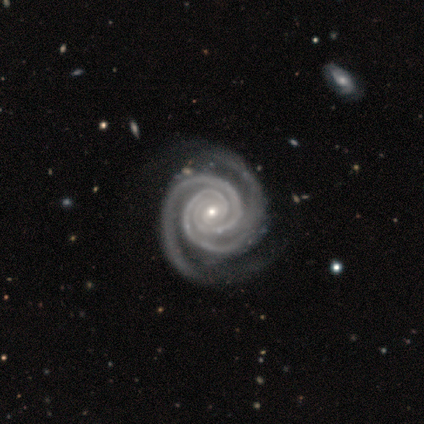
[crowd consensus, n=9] Smooth or featured: featured or disk — 100%
Edge-on disk: no — 100%
Bar: no — 89% (weak — 11%)
Spiral arms: yes — 100%
Spiral winding: tight — 100%
Spiral arm count: 2 — 78% (3 — 11%)
Bulge size: small — 67% (moderate — 33%)
Merging: none — 78% (minor disturbance — 22%)